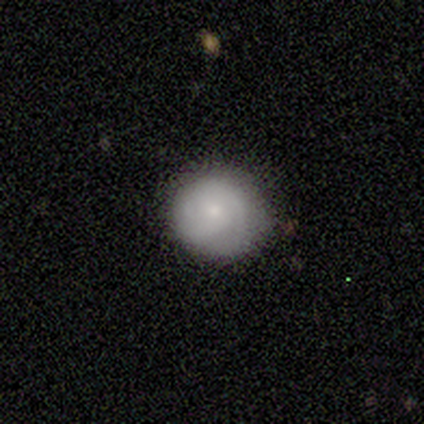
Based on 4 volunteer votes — Smooth or featured: smooth — 50% (tied with featured or disk — 50%)
How rounded: round — 100%
Merging: none — 100%